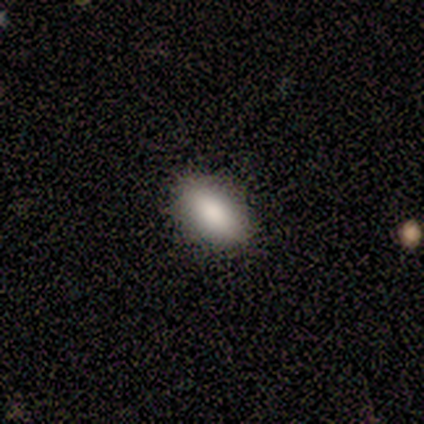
Morphology: type=smooth (80%); roundness=in between (100%); merging=none (100%).